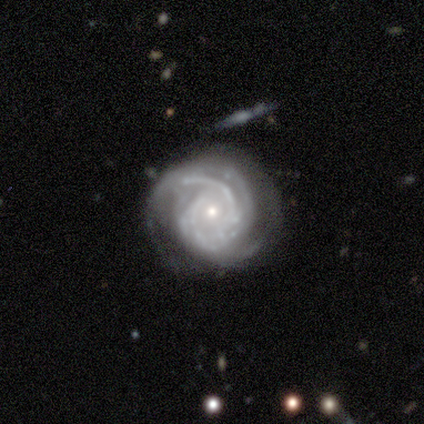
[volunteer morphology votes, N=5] Smooth or featured? featured or disk (100%)
Edge-on disk? no (100%)
Bar? no (100%)
Spiral arms? yes (100%)
Spiral winding? tight (100%)
Spiral arm count? can't tell (80%)
Bulge size? small (100%)
Merging? none (80%)